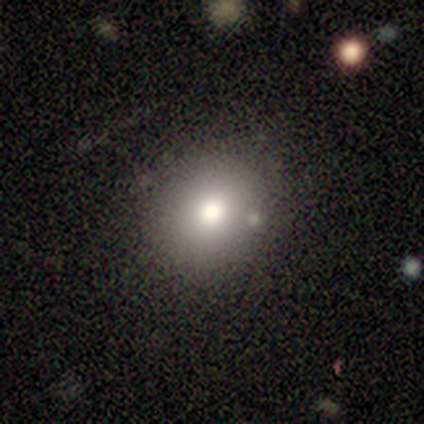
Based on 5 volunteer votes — Overall: smooth (60%; featured or disk 40%). How rounded: round (100%). Merging: none (80%).